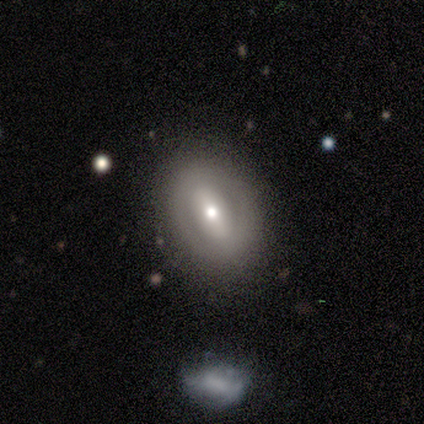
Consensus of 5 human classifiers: Overall: featured or disk (60%; smooth 40%). Edge-on disk: no (67%; yes 33%). Bar: strong (100%). Spiral arms: yes (50%, tied with no). Spiral arm count: 2 (100%). Spiral winding: tight (100%). Bulge size: small (100%). Merging: none (100%).